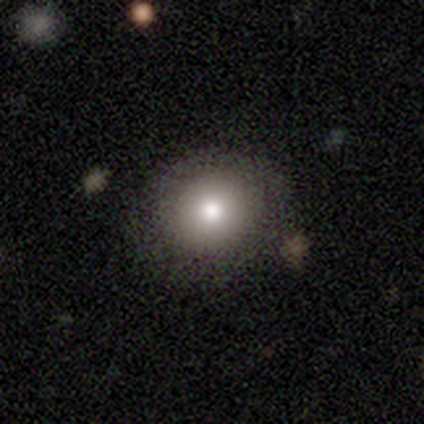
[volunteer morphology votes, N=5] type=smooth (80%); roundness=round (50%, tied with in between); merging=none (100%).